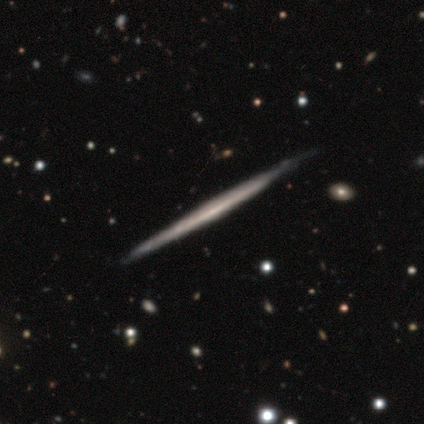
Overall: featured or disk (60%; smooth 40%). Edge-on disk: yes (100%). Edge-on bulge: none (100%). Merging: none (80%).